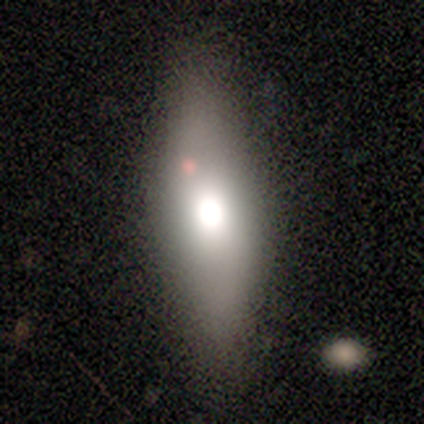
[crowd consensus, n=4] Smooth or featured?
  - smooth: 75% *
  - featured or disk: 25%
  - star or artifact: 0%
How rounded?
  - cigar-shaped: 67% *
  - in between: 33%
  - round: 0%
Merging?
  - none: 100% *
  - minor disturbance: 0%
  - major disturbance: 0%
  - merger: 0%